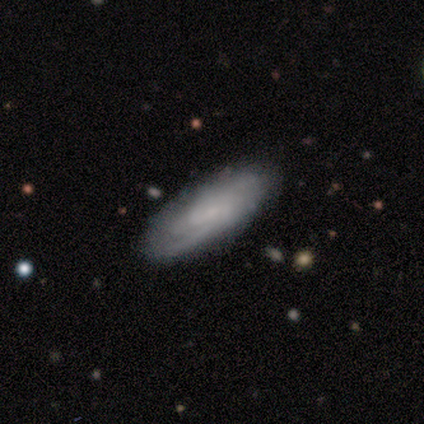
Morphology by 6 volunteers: Overall: featured or disk (67%; smooth 33%). Edge-on disk: no (100%). Bar: weak (50%, tied with no). Spiral arms: yes (100%). Spiral arm count: can't tell (50%; 1 25%). Spiral winding: tight (75%). Bulge size: small (75%). Merging: none (100%).